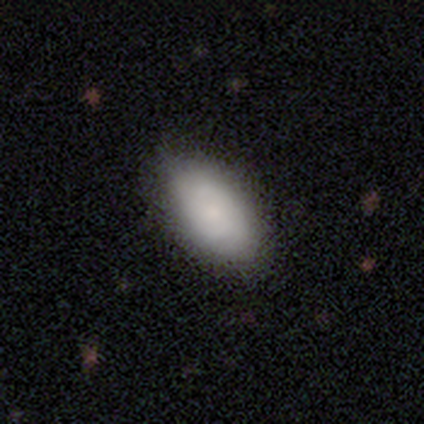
Overall: smooth (70%; featured or disk 30%). How rounded: in between (100%). Merging: none (75%).